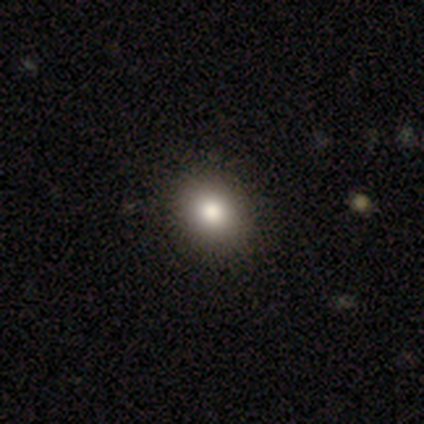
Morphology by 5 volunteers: Smooth or featured? 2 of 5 (40%, tied with featured or disk) said smooth. How rounded? 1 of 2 (50%, tied with in between) said round. Merging? 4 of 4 (100%) said none.